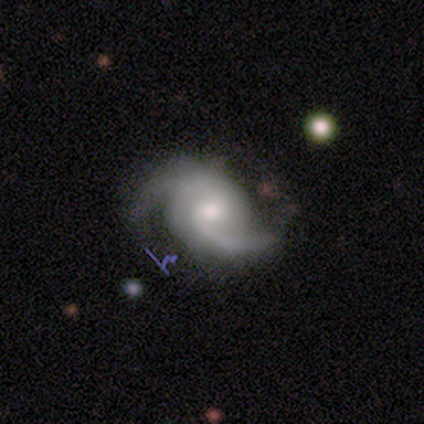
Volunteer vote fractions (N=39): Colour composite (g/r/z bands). It shows a featured or disk galaxy (92%) with no bar (65%), 2 (62%) medium (50%) spiral arms (100%) and a moderate central bulge (44%). Merging: none (68%).